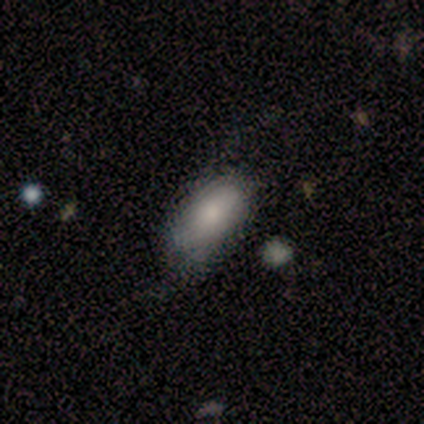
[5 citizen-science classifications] Overall: featured or disk (60%; smooth 20%). Edge-on disk: no (67%; yes 33%). Bar: strong (50%, tied with weak). Spiral arms: yes (50%, tied with no). Spiral arm count: 2 (100%). Spiral winding: loose (100%). Bulge size: dominant (50%, tied with small). Merging: none (50%, tied with minor disturbance).